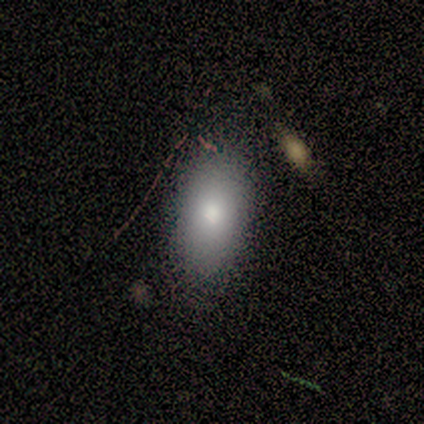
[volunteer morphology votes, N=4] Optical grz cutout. It shows a smooth galaxy with no disk features (100%) that is in between round and cigar-shaped (100%). Merging: none (100%).